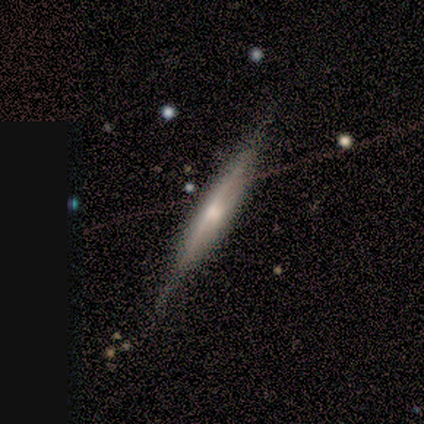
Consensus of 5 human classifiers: This appears to be a smooth galaxy with no disk features (60%) that is cigar-shaped (67%). Merging: none (80%).